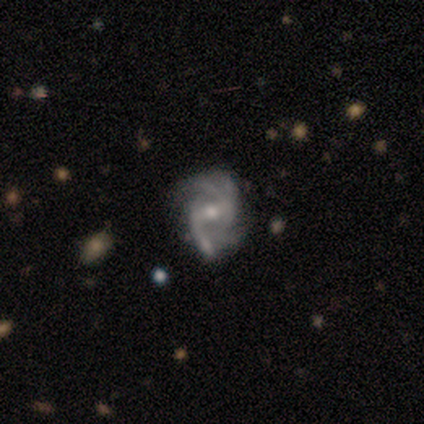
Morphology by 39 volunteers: This is clearly a featured or disk galaxy (90%). It is clearly not viewed edge-on (100%). Bar: likely weak (69%). Spiral arm pattern: clearly yes (97%). Spiral arm count: marginally 4 (41%). Spiral winding: possibly medium (59%). Central bulge: possibly moderate (54%). Merging: likely none (65%).